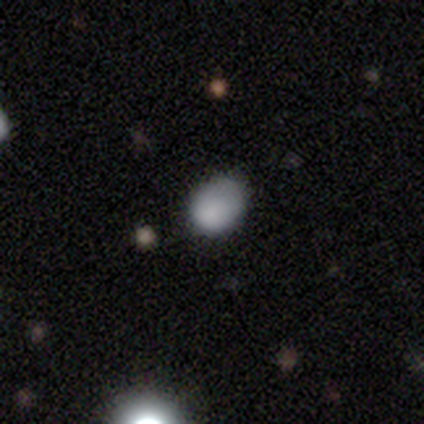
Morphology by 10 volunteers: Overall: smooth (80%). How rounded: in between (75%). Merging: none (56%; minor disturbance 22%).